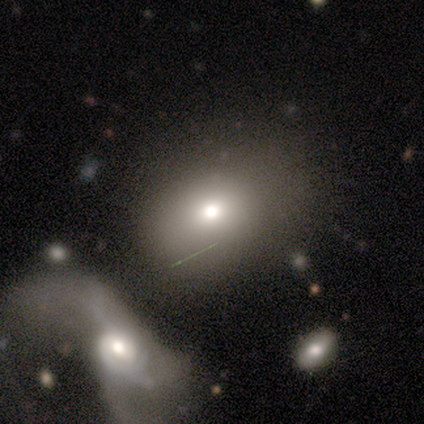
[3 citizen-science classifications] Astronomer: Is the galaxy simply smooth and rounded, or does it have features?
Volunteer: smooth — 100%.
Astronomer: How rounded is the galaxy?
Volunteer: in between — 67%.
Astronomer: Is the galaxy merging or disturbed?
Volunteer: none — 67%.